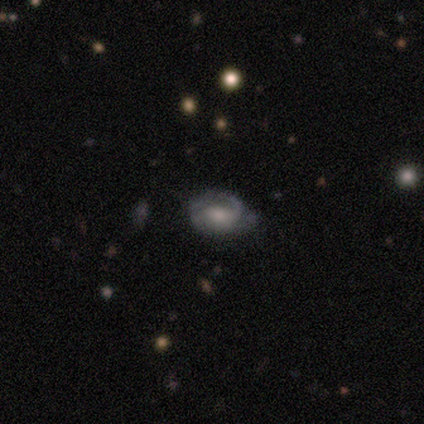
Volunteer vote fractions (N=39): Smooth or featured? featured or disk (59%)
Edge-on disk? no (100%)
Bar? no (70%)
Spiral arms? yes (78%)
Spiral winding? medium (44%)
Spiral arm count? 2 (44%)
Bulge size? moderate (61%)
Merging? none (57%)